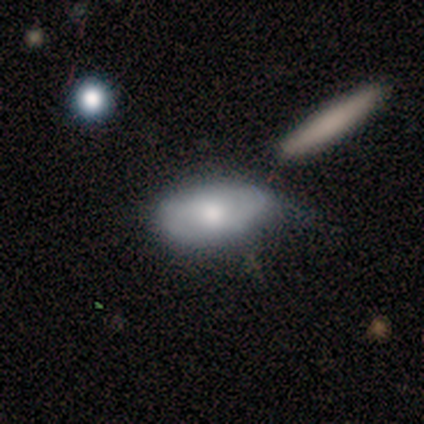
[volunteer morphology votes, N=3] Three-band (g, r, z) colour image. It shows a smooth galaxy with no disk features (100%) that is in between round and cigar-shaped (100%). Merging: none (67%).